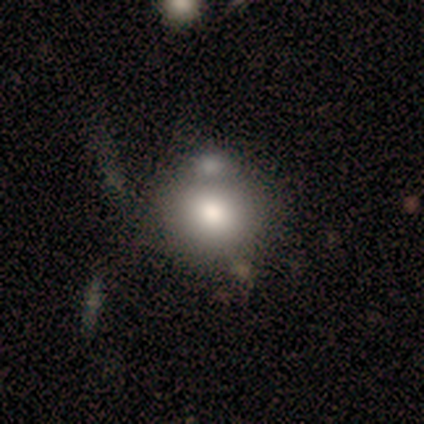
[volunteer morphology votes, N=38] Overall: smooth (76%). How rounded: round (86%). Merging: none (60%; merger 26%).